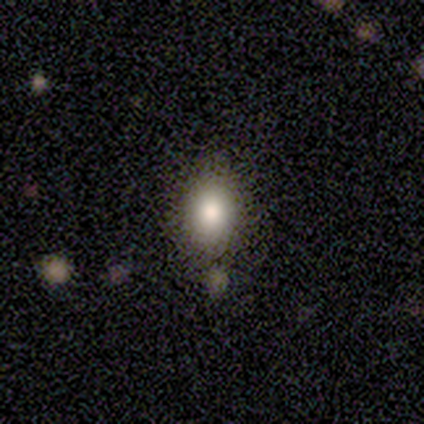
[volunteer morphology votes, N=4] Smooth or featured?
  - star or artifact: 50% *
  - smooth: 25%
  - featured or disk: 25%